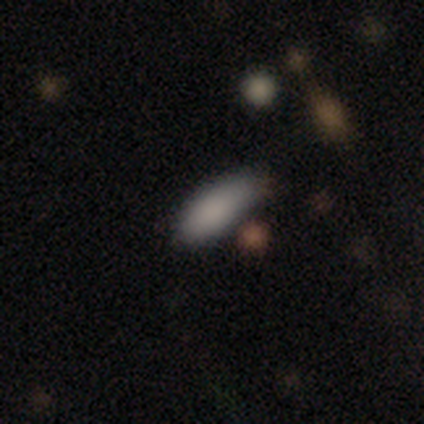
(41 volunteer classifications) This is clearly a smooth galaxy (93%). How rounded: likely in between (76%). Merging: likely none (64%).